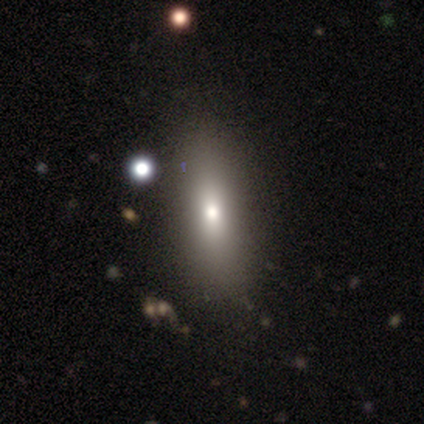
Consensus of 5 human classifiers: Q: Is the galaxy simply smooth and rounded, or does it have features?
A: smooth — 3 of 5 (60%).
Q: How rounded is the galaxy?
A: in between — 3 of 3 (100%).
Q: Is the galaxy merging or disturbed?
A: minor disturbance — 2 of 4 (50%).